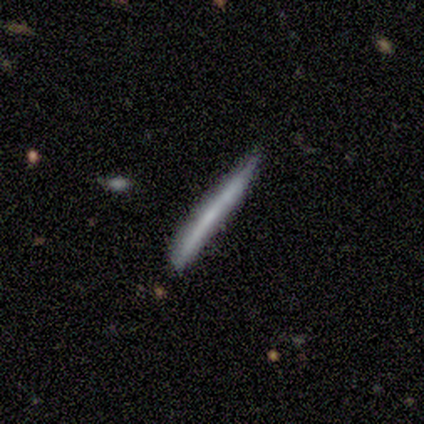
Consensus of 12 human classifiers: smooth_or_featured: smooth (p=0.58) [alt: featured or disk p=0.42]
how_rounded: cigar-shaped (p=1.00)
merging: none (p=0.75) [alt: minor disturbance p=0.25]